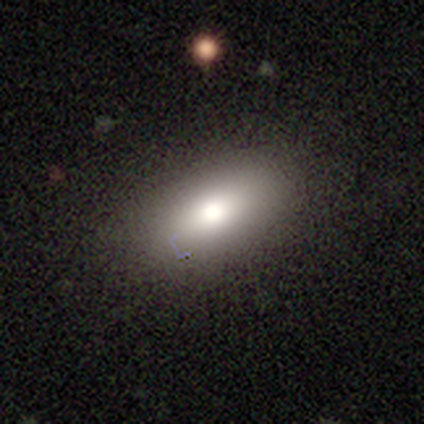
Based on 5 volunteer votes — A smooth galaxy with no disk features (80%) that is in between round and cigar-shaped (100%).

Vote fractions:
- Smooth or featured? smooth: 80% / star or artifact: 20% / featured or disk: 0%
- How rounded? in between: 100% / round: 0% / cigar-shaped: 0%
- Merging? none: 75% / minor disturbance: 25% / major disturbance: 0% / merger: 0%